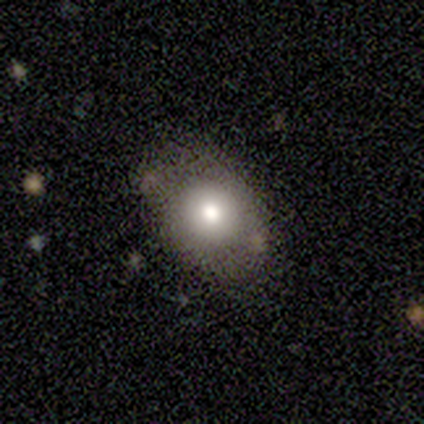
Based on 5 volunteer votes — Q: Smooth or featured?
A: smooth (100%)
Q: How rounded?
A: in between (80%); runner-up: round (20%)
Q: Merging?
A: minor disturbance (80%); runner-up: none (20%)